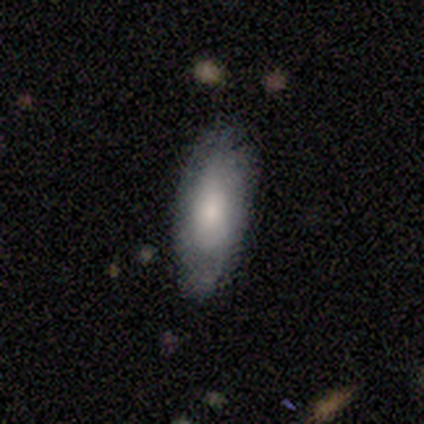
Volunteers were most divided on "merging": none: 50%, minor disturbance: 25%, major disturbance: 25%, merger: 0%. More confident: smooth or featured — smooth (100%); how rounded — in between (75%).